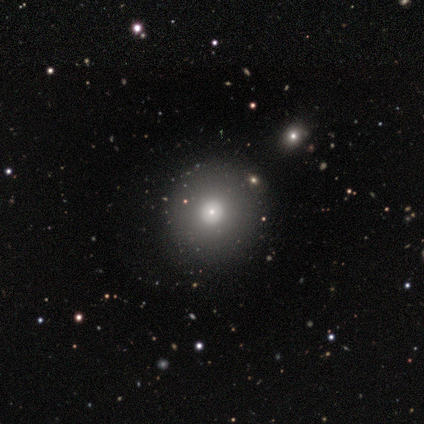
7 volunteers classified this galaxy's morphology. smooth 86%, featured or disk 14%, star or artifact 0%. Down the decision tree: how rounded — round (50%, tied with in between); merging — none (71%).